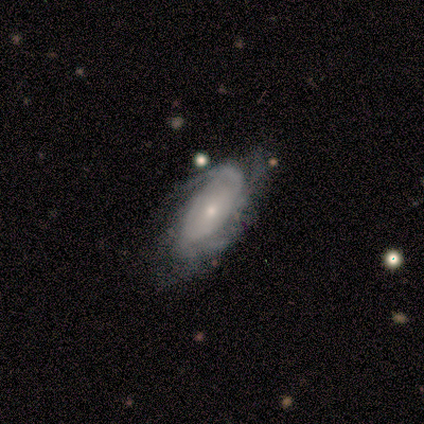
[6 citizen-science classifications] Smooth or featured? featured or disk (83%)
Edge-on disk? no (100%)
Bar? no (80%)
Spiral arms? yes (100%)
Spiral winding? tight (60%)
Spiral arm count? 2 (80%)
Bulge size? small (60%)
Merging? none (40%, tied with minor disturbance)